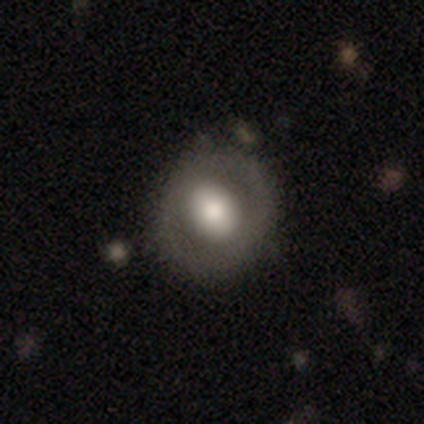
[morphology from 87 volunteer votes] Overall: featured or disk (49%; smooth 47%). Edge-on disk: no (95%). Bar: no (63%). Spiral arms: no (88%). Bulge size: large (44%; moderate 41%). Merging: none (70%).